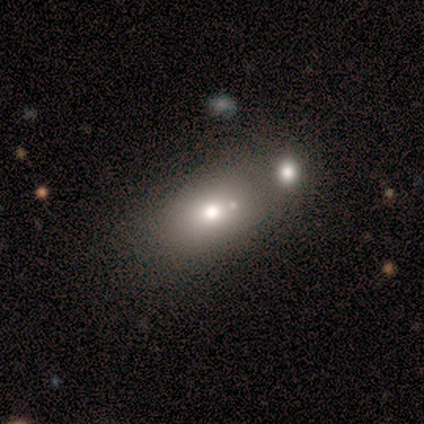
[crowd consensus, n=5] Smooth or featured? 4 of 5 (80%) said smooth. How rounded? 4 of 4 (100%) said in between. Merging? 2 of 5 (40%) said merger.